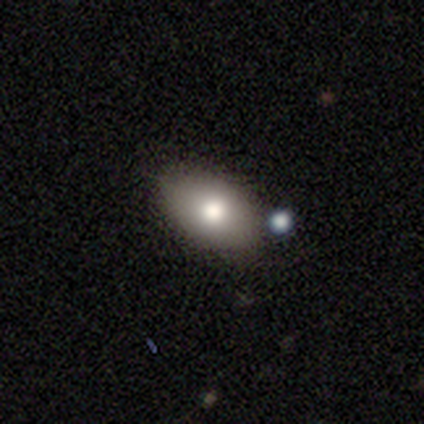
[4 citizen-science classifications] This appears to be a smooth galaxy with no disk features (100%) that is in between round and cigar-shaped (100%). Merging: none (75%).